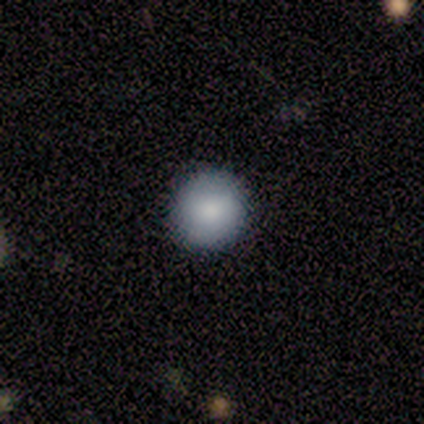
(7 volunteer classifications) smooth-or-featured: smooth: 100% | featured or disk: 0% | star or artifact: 0%
  how-rounded: round: 100% | in between: 0% | cigar-shaped: 0%
  merging: none: 86% | minor disturbance: 14% | major disturbance: 0% | merger: 0%